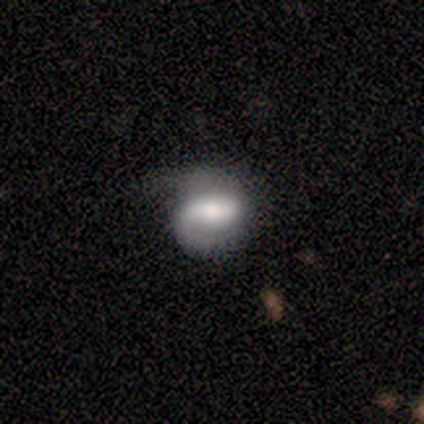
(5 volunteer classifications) Volunteers were most divided on "spiral arm count" (2-way tie): 1: 50%, 2: 50%, 3: 0%, 4: 0%, more than 4: 0%, can't tell: 0%. More confident: smooth or featured — featured or disk (100%); spiral arms — yes (100%); spiral winding — medium (100%); edge-on disk — no (80%); bulge size — moderate (75%); merging — none (60%); bar — strong (50%).